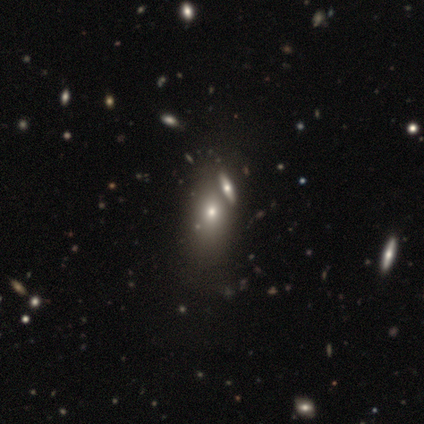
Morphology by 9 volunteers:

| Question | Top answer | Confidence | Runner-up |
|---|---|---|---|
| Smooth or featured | smooth | 78% | star or artifact (22%) |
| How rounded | in between | 71% | round (29%) |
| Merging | merger | 57% | none (29%) |